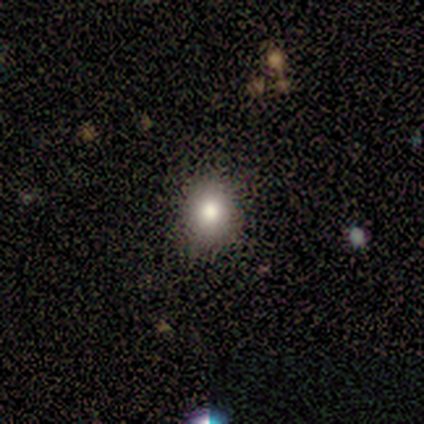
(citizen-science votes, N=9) A smooth galaxy with no disk features (44%) that is round (100%). Merging: none (100%).